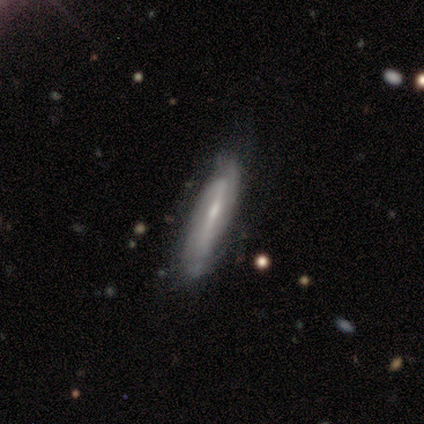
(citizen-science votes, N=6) featured or disk 67%, smooth 33%, star or artifact 0%. Down the decision tree: edge-on disk — no (100%); bar — strong (50%); spiral arms — yes (100%); spiral arm count — 2 (50%, tied with can't tell); spiral winding — medium (50%); bulge size — moderate (75%); merging — none (67%).